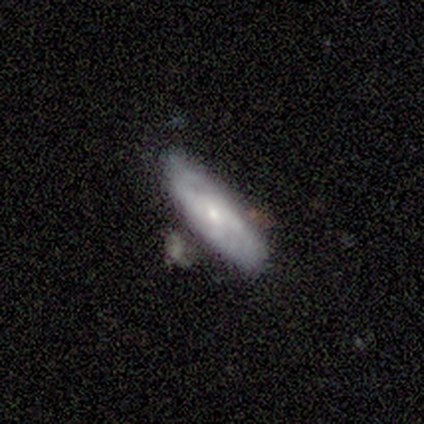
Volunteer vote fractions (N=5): smooth-or-featured: smooth: 60% | featured or disk: 40% | star or artifact: 0%
  how-rounded: in between: 67% | cigar-shaped: 33% | round: 0%
  merging: none: 80% | minor disturbance: 20% | major disturbance: 0% | merger: 0%